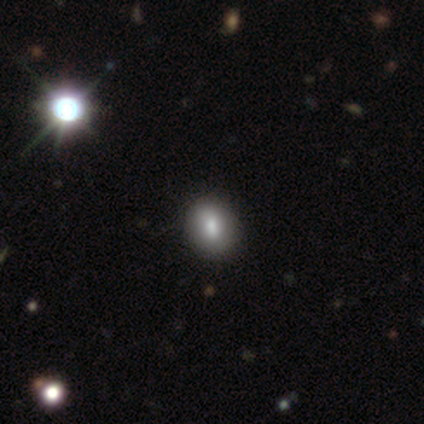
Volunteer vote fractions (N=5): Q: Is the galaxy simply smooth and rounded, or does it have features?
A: smooth — 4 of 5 (80%).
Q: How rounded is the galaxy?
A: in between — 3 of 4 (75%).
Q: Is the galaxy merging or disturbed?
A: none — 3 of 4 (75%).